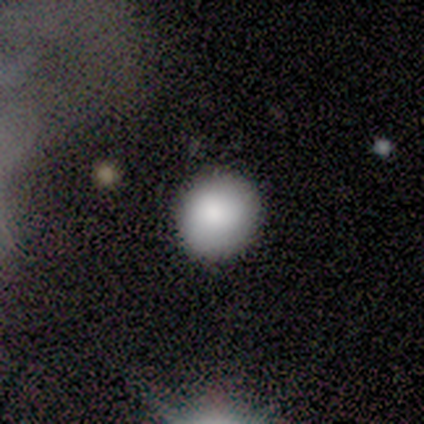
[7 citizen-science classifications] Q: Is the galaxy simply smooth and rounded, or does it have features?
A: smooth — 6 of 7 (86%).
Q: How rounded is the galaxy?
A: round — 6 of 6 (100%).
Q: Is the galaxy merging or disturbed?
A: none — 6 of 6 (100%).